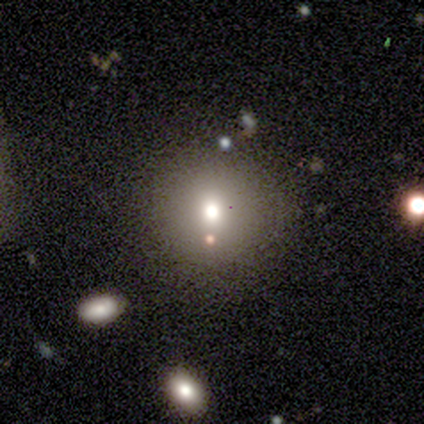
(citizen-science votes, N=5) Smooth or featured: smooth — 60% (star or artifact — 40%)
How rounded: round — 100%
Merging: none — 100%